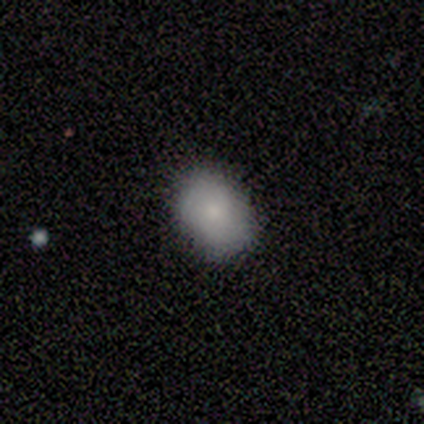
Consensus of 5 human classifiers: smooth 40% (tied), featured or disk 40% (tied), star or artifact 20%. Down the decision tree: how rounded — round (50%, tied with in between); merging — none (50%, tied with minor disturbance).